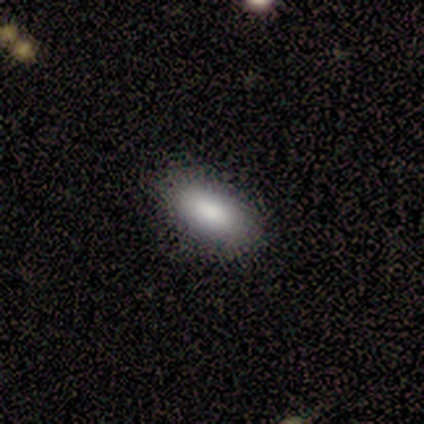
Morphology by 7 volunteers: smooth 57%, featured or disk 29%, star or artifact 14%. Down the decision tree: how rounded — in between (100%); merging — none (83%).